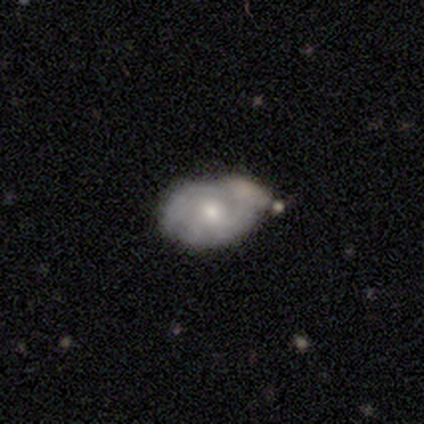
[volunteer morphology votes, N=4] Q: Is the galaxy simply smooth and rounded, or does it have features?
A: featured or disk — 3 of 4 (75%).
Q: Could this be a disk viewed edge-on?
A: no — 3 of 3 (100%).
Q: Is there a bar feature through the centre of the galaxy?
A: no — 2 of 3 (67%).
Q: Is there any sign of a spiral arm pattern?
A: yes — 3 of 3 (100%).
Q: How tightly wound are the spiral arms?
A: tight — 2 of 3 (67%).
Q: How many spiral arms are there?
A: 2 — 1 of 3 (33%, tied with 3 and can't tell).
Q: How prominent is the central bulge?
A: moderate — 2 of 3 (67%).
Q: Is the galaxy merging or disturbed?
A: none — 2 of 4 (50%).